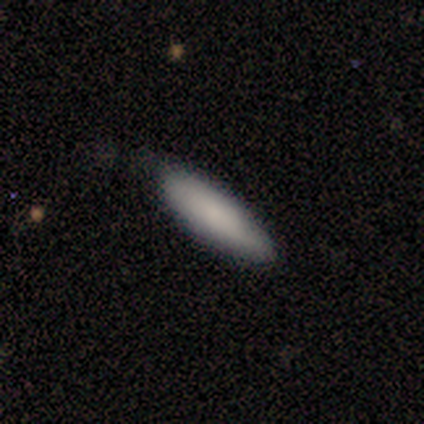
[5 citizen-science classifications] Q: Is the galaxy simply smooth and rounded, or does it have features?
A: smooth — 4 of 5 (80%).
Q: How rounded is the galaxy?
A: in between — 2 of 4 (50%, tied with cigar-shaped).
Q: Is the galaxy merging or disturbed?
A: none — 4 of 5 (80%).